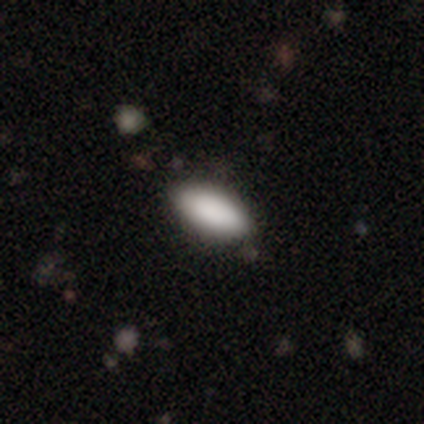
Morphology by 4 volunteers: Smooth or featured? 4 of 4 (100%) said smooth. How rounded? 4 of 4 (100%) said in between. Merging? 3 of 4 (75%) said none.